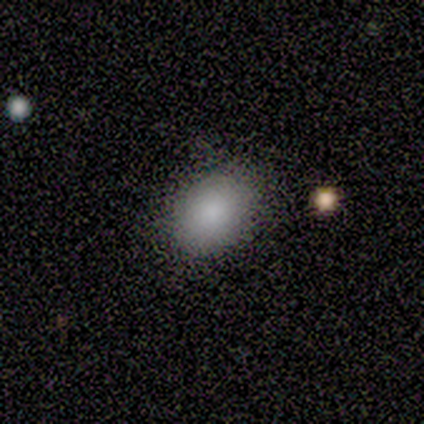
smooth_or_featured: smooth (p=1.00)
how_rounded: round (p=0.50) [tied with: in between p=0.50]
merging: none (p=1.00)